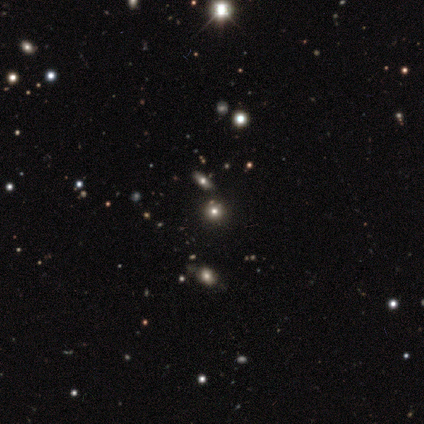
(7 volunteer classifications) This is likely a smooth galaxy (71%). How rounded: clearly round (80%). Merging: clearly none (80%).